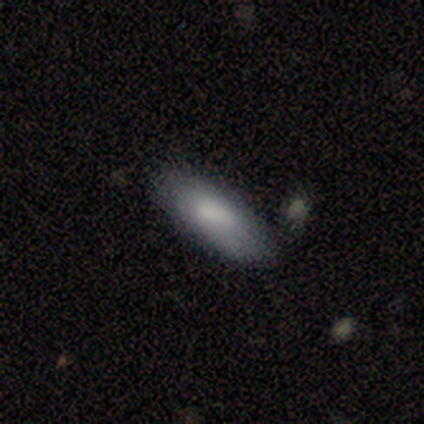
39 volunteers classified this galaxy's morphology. Q: Smooth or featured?
A: smooth (77%); runner-up: featured or disk (23%)
Q: How rounded?
A: in between (73%); runner-up: cigar-shaped (23%)
Q: Merging?
A: none (46%); runner-up: minor disturbance (10%)